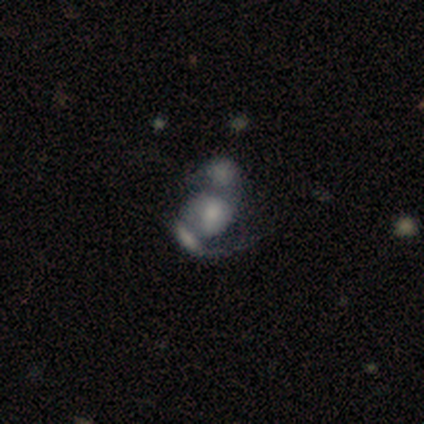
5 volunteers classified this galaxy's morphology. Q: Smooth or featured?
A: smooth (80%); runner-up: featured or disk (20%)
Q: How rounded?
A: in between (75%); runner-up: round (25%)
Q: Merging?
A: merger (80%); runner-up: minor disturbance (20%)